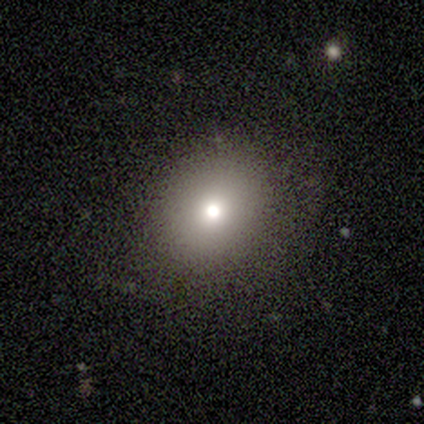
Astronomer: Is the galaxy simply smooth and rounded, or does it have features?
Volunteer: smooth — 74%.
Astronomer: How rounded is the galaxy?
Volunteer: round — 69%.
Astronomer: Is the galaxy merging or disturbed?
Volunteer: none — 82%.